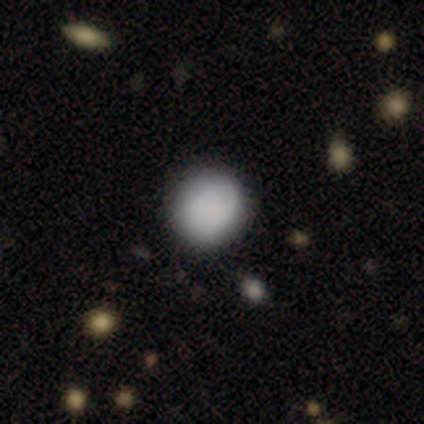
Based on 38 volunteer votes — A smooth galaxy with no disk features (89%) that is round (82%).

Vote fractions:
- Smooth or featured? smooth: 89% / featured or disk: 5% / star or artifact: 5%
- How rounded? round: 82% / in between: 18% / cigar-shaped: 0%
- Merging? none: 53% / minor disturbance: 6% / major disturbance: 3% / merger: 3%